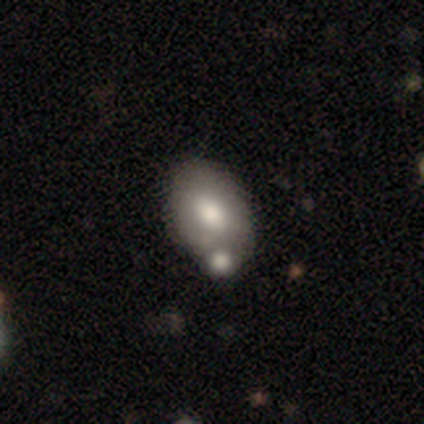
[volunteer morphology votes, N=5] This appears to be a smooth galaxy with no disk features (60%) that is in between round and cigar-shaped (67%). Merging: none (40%, tied with merger).